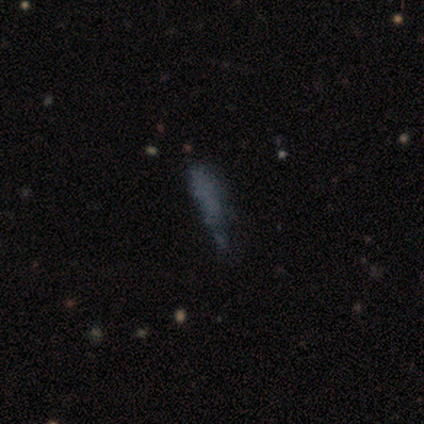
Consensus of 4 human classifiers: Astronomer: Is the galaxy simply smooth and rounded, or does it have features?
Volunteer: featured or disk — 50%.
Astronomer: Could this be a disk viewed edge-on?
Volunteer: no — 100%.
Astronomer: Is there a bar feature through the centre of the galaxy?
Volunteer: no — 100%.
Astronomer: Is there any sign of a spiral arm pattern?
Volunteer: no — 100%.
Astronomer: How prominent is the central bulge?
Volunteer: none — 100%.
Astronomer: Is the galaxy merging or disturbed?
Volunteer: none — 67%.